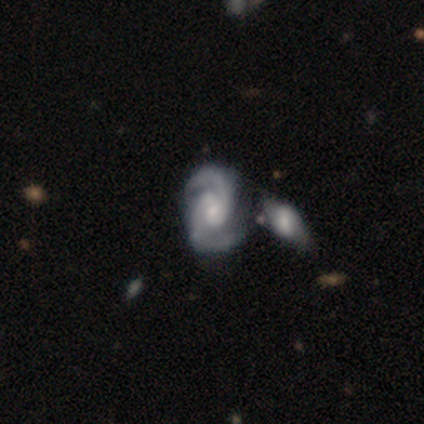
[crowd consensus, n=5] Smooth or featured?
  - featured or disk: 100% *
  - smooth: 0%
  - star or artifact: 0%
Edge-on disk?
  - no: 100% *
  - yes: 0%
Bar?
  - weak: 60% *
  - strong: 20%
  - no: 20%
Spiral arms?
  - yes: 100% *
  - no: 0%
Spiral winding?
  - medium: 60% *
  - tight: 40%
  - loose: 0%
Spiral arm count?
  - 2: 100% *
  - 1: 0%
  - 3: 0%
  - 4: 0%
  - more than 4: 0%
  - can't tell: 0%
Bulge size?
  - small: 80% *
  - moderate: 20%
  - dominant: 0%
  - large: 0%
  - none: 0%
Merging?
  - none: 40% * (tied)
  - minor disturbance: 40% * (tied)
  - merger: 20%
  - major disturbance: 0%